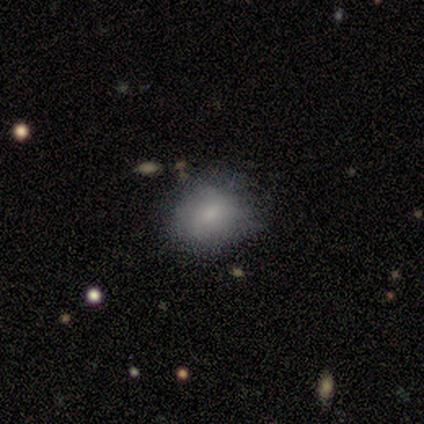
This is clearly a smooth galaxy (80%). How rounded: likely in between (75%). Merging: possibly minor disturbance (50%).